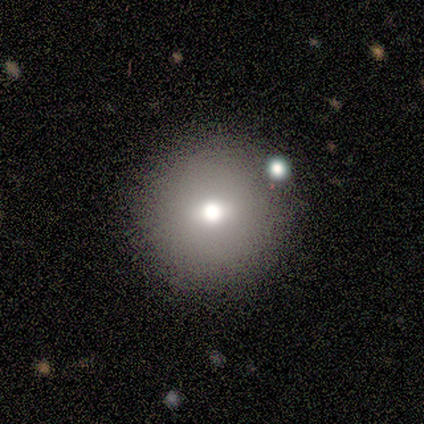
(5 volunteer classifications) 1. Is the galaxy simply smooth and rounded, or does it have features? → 100% smooth, 0% featured or disk, 0% star or artifact.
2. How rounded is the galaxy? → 100% round, 0% in between, 0% cigar-shaped.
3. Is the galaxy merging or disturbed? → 100% none, 0% minor disturbance, 0% major disturbance, 0% merger.